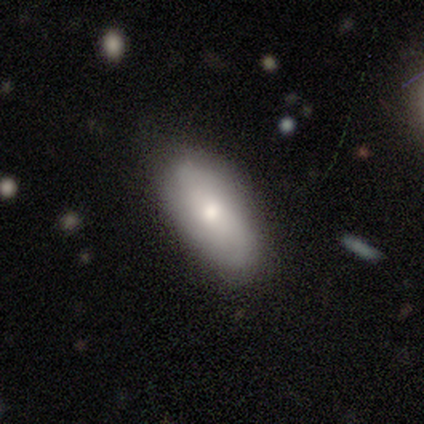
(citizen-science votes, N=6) smooth 67%, featured or disk 33%, star or artifact 0%. Down the decision tree: how rounded — in between (100%); merging — none (100%).